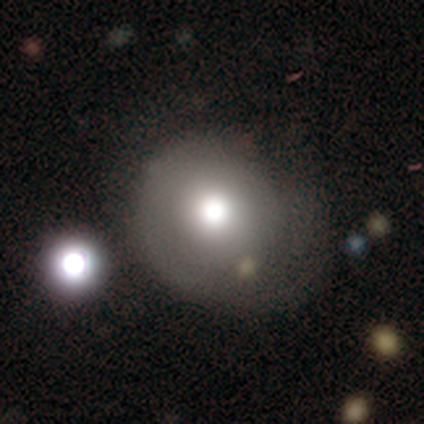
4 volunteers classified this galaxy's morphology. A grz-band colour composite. It shows a smooth galaxy with no disk features (100%) that is round (100%). Merging: none (75%).